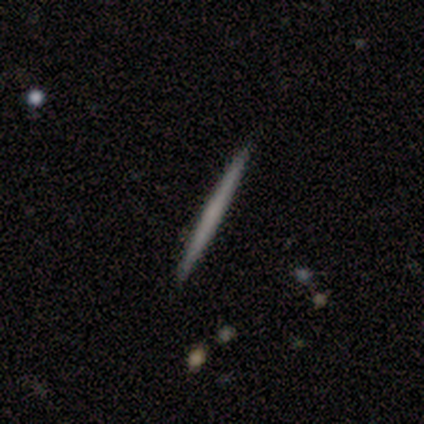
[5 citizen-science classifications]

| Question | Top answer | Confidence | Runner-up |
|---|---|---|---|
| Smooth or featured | smooth | 60% | featured or disk (40%) |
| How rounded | cigar-shaped | 100% | — |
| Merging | none | 80% | minor disturbance (20%) |